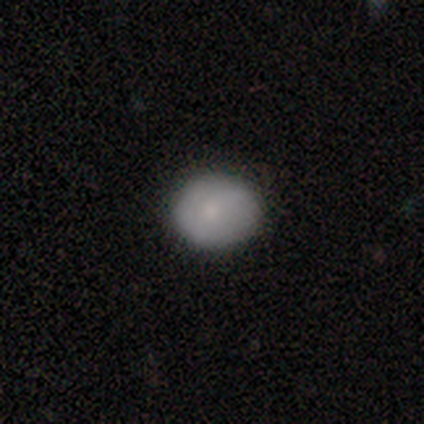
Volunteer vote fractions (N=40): A smooth galaxy with no disk features (75%) that is round (70%). Merging: none (94%).